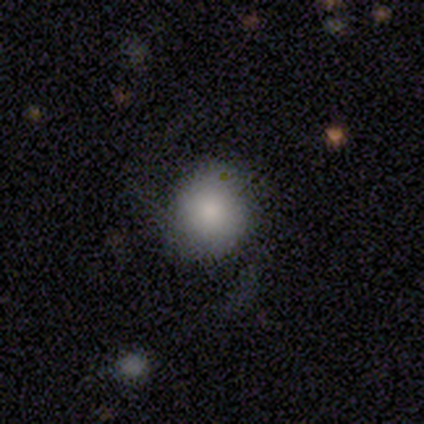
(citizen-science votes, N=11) Smooth or featured? smooth (73%)
How rounded? round (75%)
Merging? none (91%)